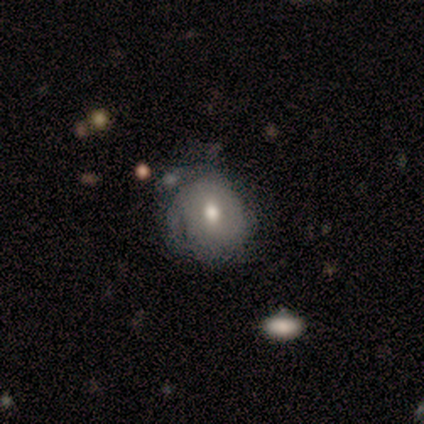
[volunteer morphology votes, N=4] Smooth or featured: smooth — 75% (featured or disk — 25%)
How rounded: round — 67% (in between — 33%)
Merging: none — 50% (tied with minor disturbance — 50%)